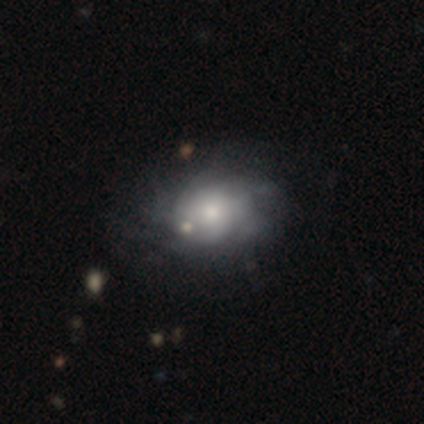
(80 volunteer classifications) Q: Smooth or featured?
A: featured or disk (51%); runner-up: smooth (44%)
Q: Edge-on disk?
A: no (95%); runner-up: yes (5%)
Q: Bar?
A: no (87%); runner-up: weak (10%)
Q: Spiral arms?
A: yes (59%); runner-up: no (41%)
Q: Spiral winding?
A: tight (48%); tied with: medium (48%)
Q: Spiral arm count?
A: can't tell (70%); runner-up: 4 (17%)
Q: Bulge size?
A: moderate (49%); runner-up: small (36%)
Q: Merging?
A: none (30%); runner-up: major disturbance (11%)